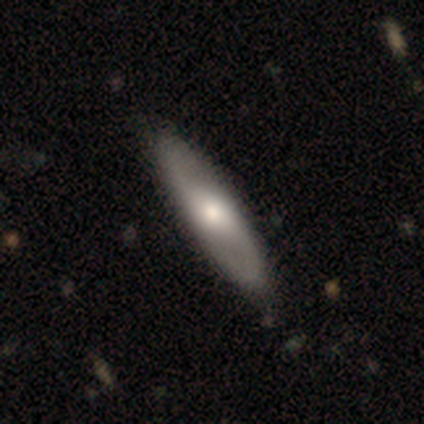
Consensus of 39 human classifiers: A featured or disk galaxy (62%) with no bar (73%), 2 (88%) loose (62%) spiral arms (53%) and a moderate central bulge (67%). Merging: none (69%).